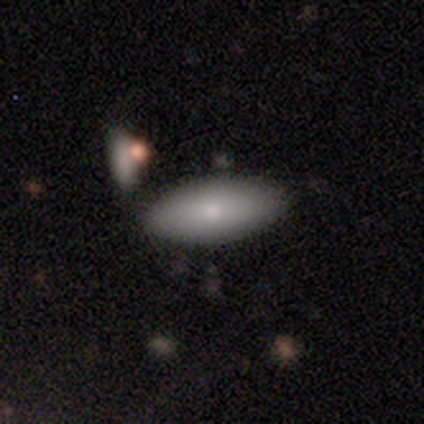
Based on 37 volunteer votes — smooth 92%, star or artifact 5%, featured or disk 3%. Down the decision tree: how rounded — in between (88%); merging — none (63%).